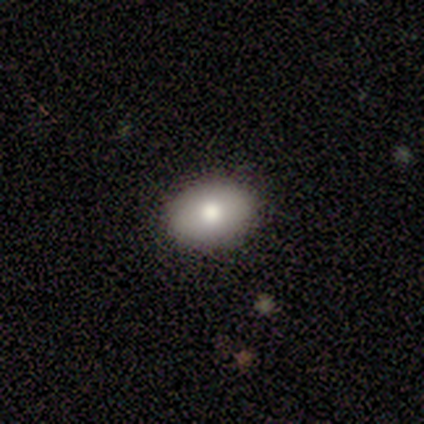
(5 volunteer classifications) Q: Smooth or featured?
A: smooth (100%)
Q: How rounded?
A: in between (80%); runner-up: round (20%)
Q: Merging?
A: none (80%); runner-up: minor disturbance (20%)